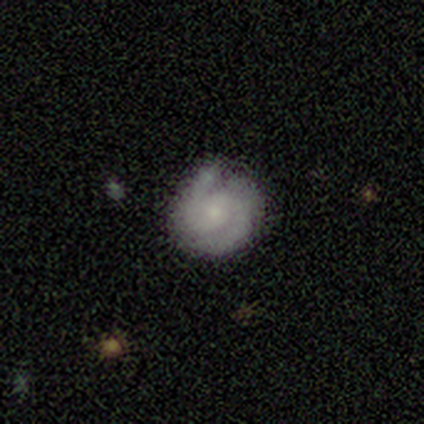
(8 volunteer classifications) This is clearly a featured or disk galaxy (88%). It is clearly not viewed edge-on (100%). Bar: clearly no (100%). Spiral arm pattern: likely yes (71%). Spiral arm count: likely 2 (60%). Spiral winding: clearly tight (80%). Central bulge: clearly small (86%). Merging: likely none (71%).